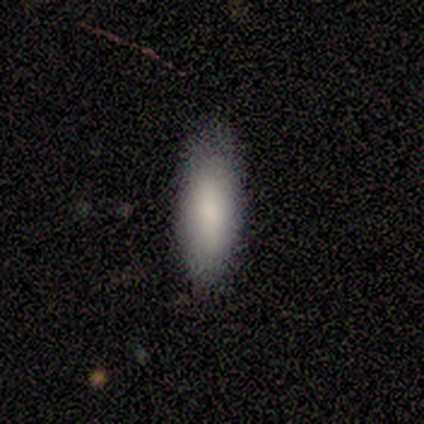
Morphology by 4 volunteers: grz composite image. It shows a smooth galaxy with no disk features (100%) that is in between round and cigar-shaped (50%, tied with cigar-shaped). Merging: none (75%).